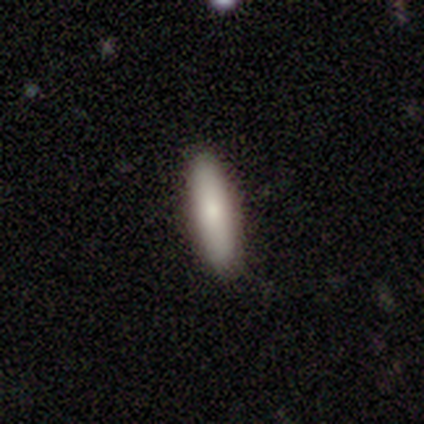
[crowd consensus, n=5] Overall: smooth (80%). How rounded: in between (50%, tied with cigar-shaped). Merging: none (100%).